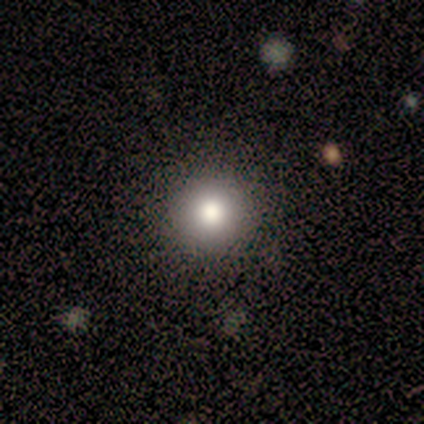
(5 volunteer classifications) smooth 80%, star or artifact 20%, featured or disk 0%. Down the decision tree: how rounded — round (100%); merging — none (100%).